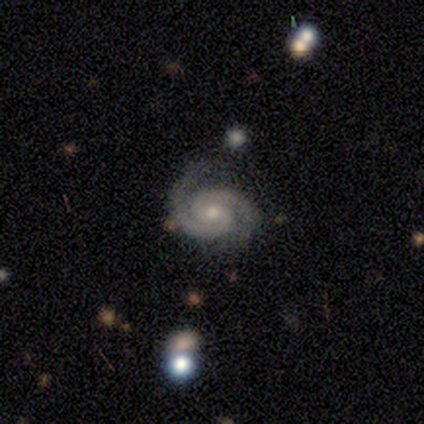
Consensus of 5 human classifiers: Smooth or featured: featured or disk — 100%
Edge-on disk: no — 100%
Bar: no — 60% (weak — 40%)
Spiral arms: yes — 100%
Spiral winding: medium — 80% (tight — 20%)
Spiral arm count: 2 — 100%
Bulge size: moderate — 60% (small — 40%)
Merging: none — 80% (minor disturbance — 20%)